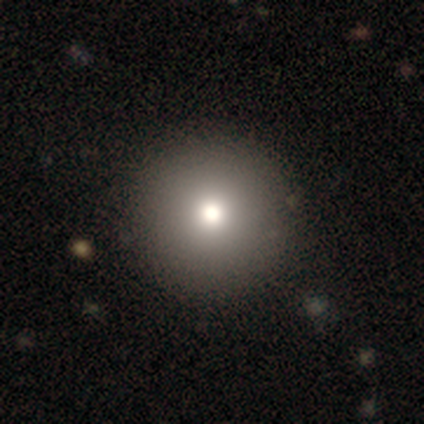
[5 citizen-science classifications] Morphology: type=smooth (60%); roundness=round (100%); merging=none (100%).